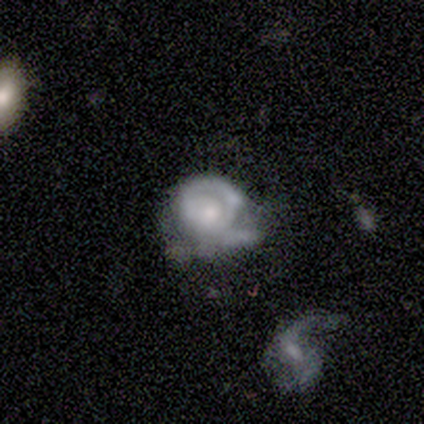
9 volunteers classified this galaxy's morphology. smooth 56%, featured or disk 44%, star or artifact 0%. Down the decision tree: how rounded — round (60%); merging — none (44%).